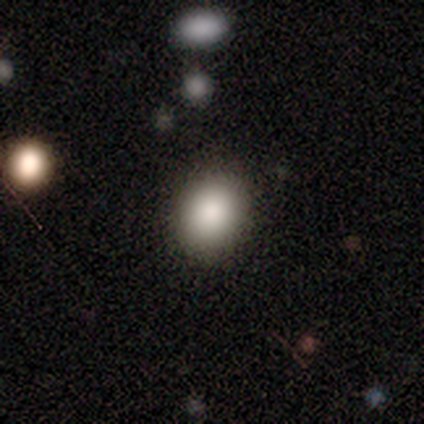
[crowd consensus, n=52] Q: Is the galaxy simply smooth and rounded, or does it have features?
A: smooth — 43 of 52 (83%).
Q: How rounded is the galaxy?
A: in between — 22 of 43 (51%).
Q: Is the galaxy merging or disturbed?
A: none — 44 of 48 (92%).